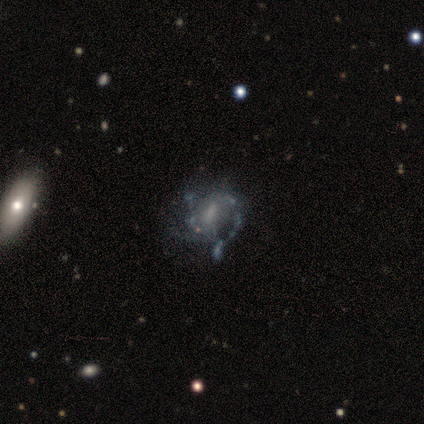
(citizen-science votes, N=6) A featured or disk galaxy (83%) with a weak bar (100%), 2 (50%) medium (50%, tied with loose) spiral arms (80%) and a small central bulge (40%).

Vote fractions:
- Smooth or featured? featured or disk: 83% / star or artifact: 17% / smooth: 0%
- Edge-on disk? no: 100% / yes: 0%
- Bar? weak: 100% / strong: 0% / no: 0%
- Spiral arms? yes: 80% / no: 20%
- Spiral winding? medium: 50% (tied) / loose: 50% (tied) / tight: 0%
- Spiral arm count? 2: 50% / 1: 25% / 3: 25% / 4: 0% / more than 4: 0% / can't tell: 0%
- Bulge size? small: 40% / large: 20% / moderate: 20% / none: 20% / dominant: 0%
- Merging? none: 40% (tied) / major disturbance: 40% (tied) / minor disturbance: 20% / merger: 0%